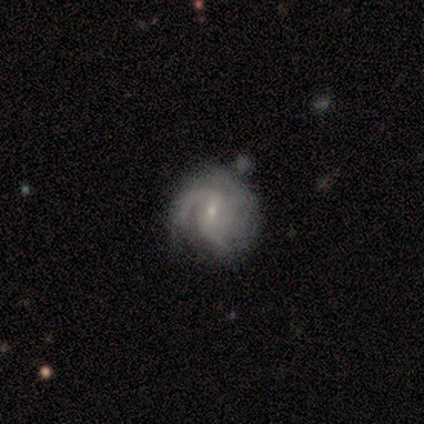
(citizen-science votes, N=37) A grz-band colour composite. It shows a featured or disk galaxy (73%) with a weak bar (62%), 3 (46%) medium (50%) spiral arms (100%) and a small central bulge (81%). Merging: none (56%).